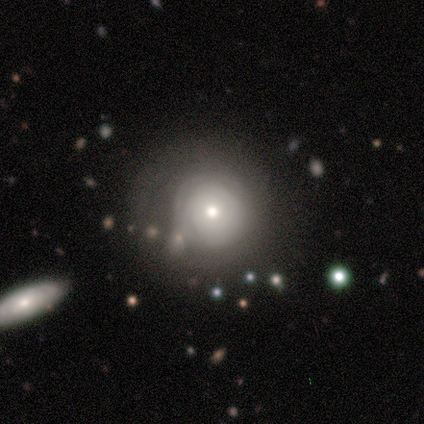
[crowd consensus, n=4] This appears to be a smooth galaxy with no disk features (75%) that is round (100%). Merging: none (50%, tied with major disturbance).